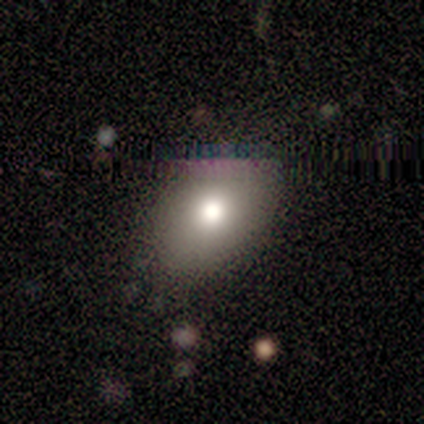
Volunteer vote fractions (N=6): Overall: smooth (83%). How rounded: in between (80%). Merging: none (67%).